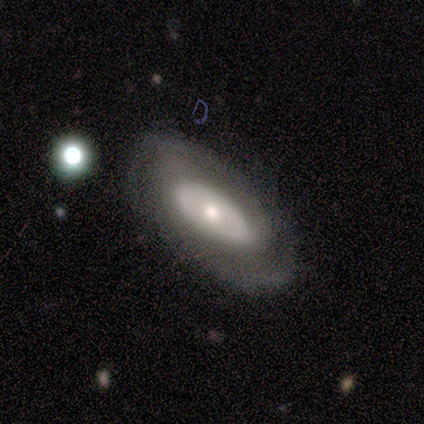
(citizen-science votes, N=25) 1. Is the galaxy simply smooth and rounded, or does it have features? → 52% featured or disk, 44% smooth, 4% star or artifact.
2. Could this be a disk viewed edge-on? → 77% no, 23% yes.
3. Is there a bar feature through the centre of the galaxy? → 100% no, 0% strong, 0% weak.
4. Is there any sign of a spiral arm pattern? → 70% yes, 30% no.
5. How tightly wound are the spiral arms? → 71% tight, 14% medium, 14% loose.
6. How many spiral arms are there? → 57% 2, 43% can't tell, 0% 1, 0% 3, 0% 4, 0% more than 4.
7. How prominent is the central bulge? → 50% moderate, 40% small, 10% large, 0% dominant, 0% none.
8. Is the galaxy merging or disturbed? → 21% none, 12% minor disturbance, 12% merger, 8% major disturbance.